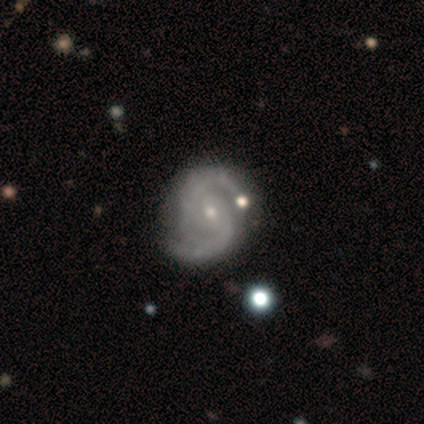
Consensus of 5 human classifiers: Smooth or featured?
  - featured or disk: 100% *
  - smooth: 0%
  - star or artifact: 0%
Edge-on disk?
  - no: 100% *
  - yes: 0%
Bar?
  - weak: 60% *
  - no: 40%
  - strong: 0%
Spiral arms?
  - yes: 100% *
  - no: 0%
Spiral winding?
  - loose: 60% *
  - tight: 20%
  - medium: 20%
Spiral arm count?
  - 2: 100% *
  - 1: 0%
  - 3: 0%
  - 4: 0%
  - more than 4: 0%
  - can't tell: 0%
Bulge size?
  - small: 100% *
  - dominant: 0%
  - large: 0%
  - moderate: 0%
  - none: 0%
Merging?
  - none: 80% *
  - minor disturbance: 20%
  - major disturbance: 0%
  - merger: 0%